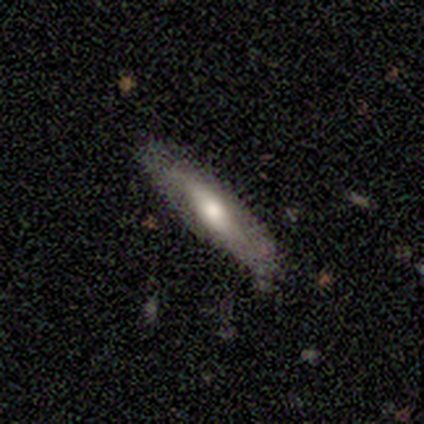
smooth-or-featured: featured or disk: 75% | smooth: 25% | star or artifact: 0%
  disk-edge-on: no: 100% | yes: 0%
    bar: no: 100% | strong: 0% | weak: 0%
    has-spiral-arms: no: 67% | yes: 33%
    bulge-size: moderate: 100% | dominant: 0% | large: 0% | small: 0% | none: 0%
  merging: none: 50% (tied) | minor disturbance: 50% (tied) | major disturbance: 0% | merger: 0%